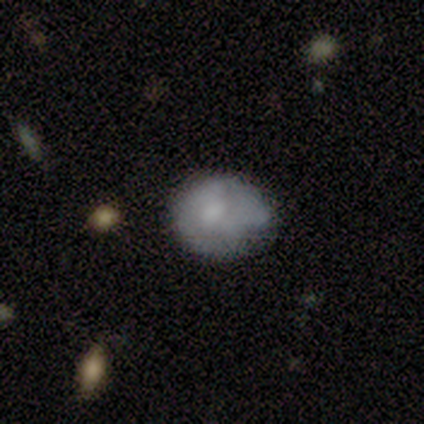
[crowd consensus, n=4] A smooth galaxy with no disk features (50%) that is in between round and cigar-shaped (100%).

Vote fractions:
- Smooth or featured? smooth: 50% / featured or disk: 25% / star or artifact: 25%
- How rounded? in between: 100% / round: 0% / cigar-shaped: 0%
- Merging? none: 67% / major disturbance: 33% / minor disturbance: 0% / merger: 0%